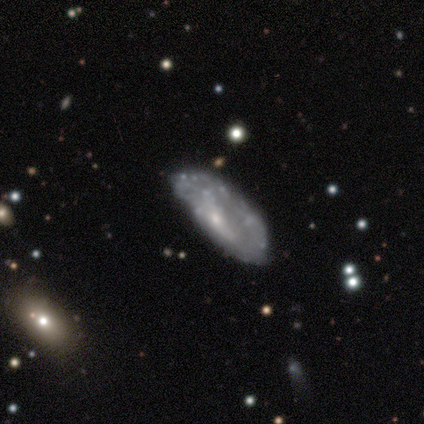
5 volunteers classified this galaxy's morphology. smooth_or_featured: smooth (p=0.60) [alt: featured or disk p=0.40]
how_rounded: in between (p=1.00)
merging: minor disturbance (p=0.60) [alt: none p=0.20]